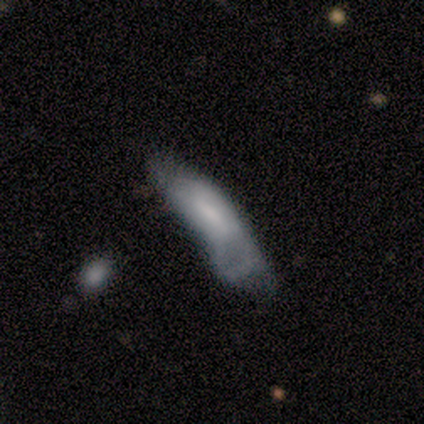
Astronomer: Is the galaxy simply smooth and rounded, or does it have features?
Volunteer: featured or disk — 60% (runner-up: smooth, 40%).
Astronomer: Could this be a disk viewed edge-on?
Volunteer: no — 67%.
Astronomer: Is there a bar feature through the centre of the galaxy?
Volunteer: strong — 50%, tied with no at 50%.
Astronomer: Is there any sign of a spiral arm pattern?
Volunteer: no — 100%.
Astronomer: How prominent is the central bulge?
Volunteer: moderate — 50%, tied with none at 50%.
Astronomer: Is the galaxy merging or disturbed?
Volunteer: minor disturbance — 60% (runner-up: major disturbance, 40%).